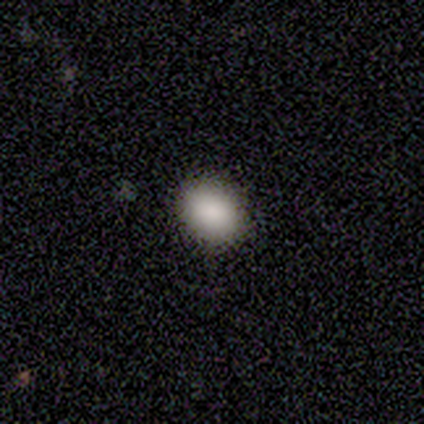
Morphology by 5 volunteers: Smooth or featured? 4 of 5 (80%) said smooth. How rounded? 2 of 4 (50%, tied with in between) said round. Merging? 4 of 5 (80%) said none.